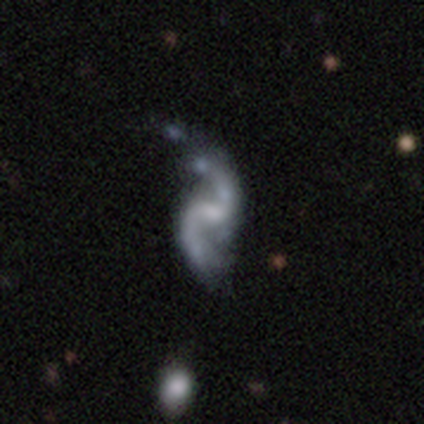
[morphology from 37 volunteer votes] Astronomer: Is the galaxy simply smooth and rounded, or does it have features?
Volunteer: featured or disk — 100%.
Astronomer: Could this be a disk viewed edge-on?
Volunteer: no — 100%.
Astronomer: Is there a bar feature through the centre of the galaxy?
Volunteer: weak — 46% (runner-up: no, 38%).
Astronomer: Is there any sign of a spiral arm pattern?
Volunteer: yes — 100%.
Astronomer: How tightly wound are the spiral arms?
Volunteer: loose — 78%.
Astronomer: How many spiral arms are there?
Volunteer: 2 — 95%.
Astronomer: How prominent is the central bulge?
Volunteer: none — 35% (runner-up: moderate, 32%).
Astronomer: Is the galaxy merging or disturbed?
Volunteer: none — 41% (runner-up: major disturbance, 16%).